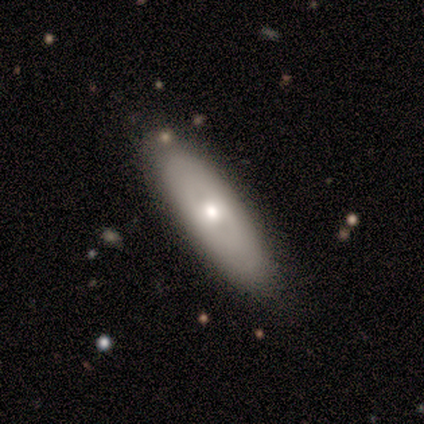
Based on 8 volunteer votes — Smooth or featured?
  - smooth: 75% *
  - featured or disk: 25%
  - star or artifact: 0%
How rounded?
  - cigar-shaped: 67% *
  - in between: 33%
  - round: 0%
Merging?
  - none: 100% *
  - minor disturbance: 0%
  - major disturbance: 0%
  - merger: 0%